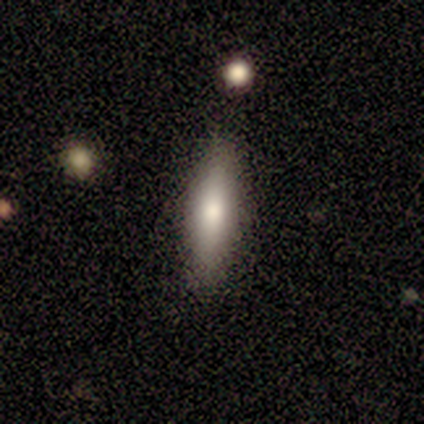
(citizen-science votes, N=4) Volunteers were most divided on "how rounded": in between: 75%, cigar-shaped: 25%, round: 0%. More confident: smooth or featured — smooth (100%); merging — none (100%).